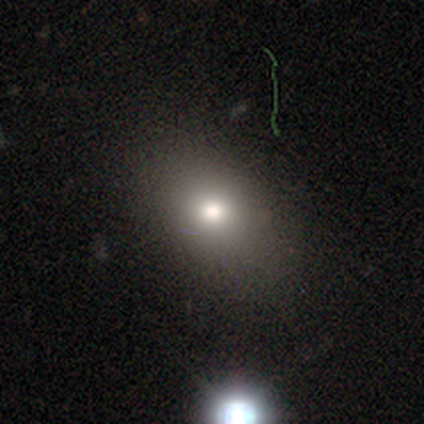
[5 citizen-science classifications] A smooth galaxy with no disk features (40%, tied with featured or disk) that is in between round and cigar-shaped (100%).

Vote fractions:
- Smooth or featured? smooth: 40% (tied) / featured or disk: 40% (tied) / star or artifact: 20%
- How rounded? in between: 100% / round: 0% / cigar-shaped: 0%
- Merging? none: 75% / minor disturbance: 25% / major disturbance: 0% / merger: 0%